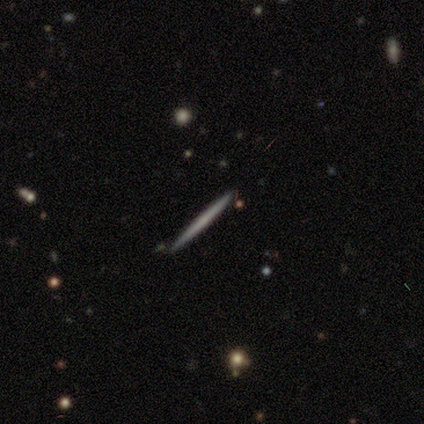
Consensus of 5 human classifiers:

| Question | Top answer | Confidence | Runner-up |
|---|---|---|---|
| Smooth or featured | smooth | 80% | featured or disk (20%) |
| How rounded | cigar-shaped | 100% | — |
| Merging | none | 100% | — |